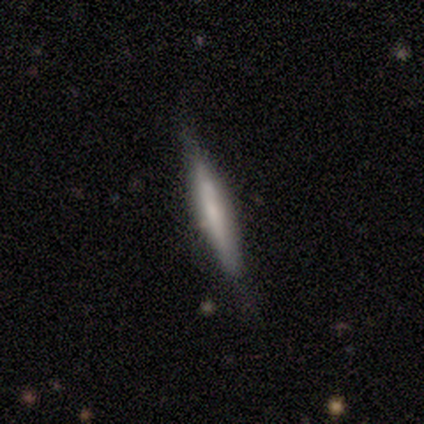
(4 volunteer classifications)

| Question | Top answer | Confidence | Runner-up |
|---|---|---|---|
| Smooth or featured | smooth | 75% | featured or disk (25%) |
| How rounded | cigar-shaped | 67% | in between (33%) |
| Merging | none | 50% | tied: minor disturbance (50%) |